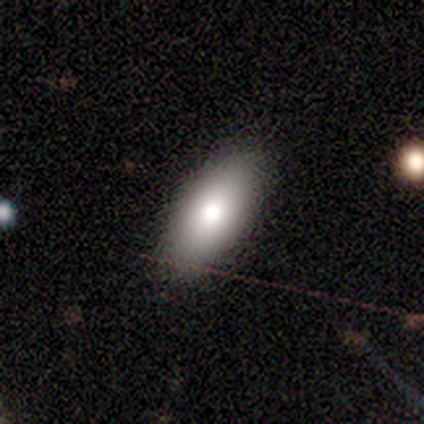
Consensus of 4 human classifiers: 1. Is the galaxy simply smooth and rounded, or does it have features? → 100% smooth, 0% featured or disk, 0% star or artifact.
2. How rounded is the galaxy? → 100% in between, 0% round, 0% cigar-shaped.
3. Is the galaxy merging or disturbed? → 100% none, 0% minor disturbance, 0% major disturbance, 0% merger.